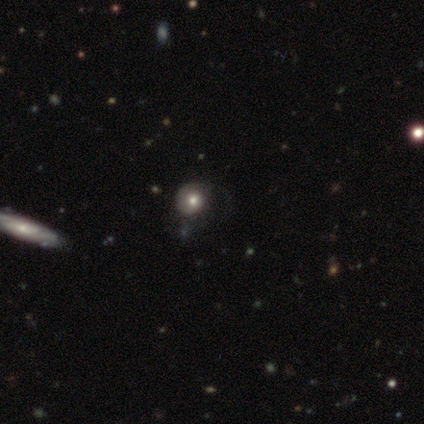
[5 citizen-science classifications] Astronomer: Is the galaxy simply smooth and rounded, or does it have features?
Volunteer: featured or disk — 60% (runner-up: smooth, 40%).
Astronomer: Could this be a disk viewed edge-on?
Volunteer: no — 100%.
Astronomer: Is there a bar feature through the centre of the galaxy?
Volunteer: no — 67%.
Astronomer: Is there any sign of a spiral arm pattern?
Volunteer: no — 100%.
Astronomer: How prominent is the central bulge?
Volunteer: moderate — 67%.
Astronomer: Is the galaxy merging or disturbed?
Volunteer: major disturbance — 80%.